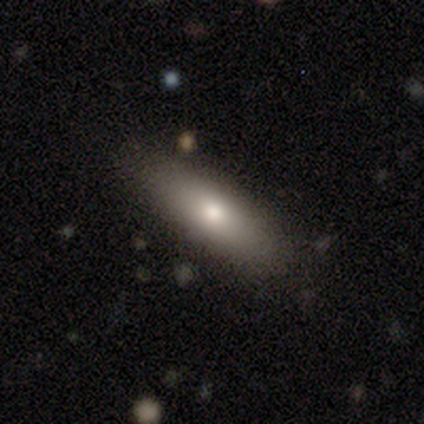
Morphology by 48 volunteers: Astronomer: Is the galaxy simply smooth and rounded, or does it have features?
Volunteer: smooth — 75%.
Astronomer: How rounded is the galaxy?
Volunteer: cigar-shaped — 56% (runner-up: in between, 42%).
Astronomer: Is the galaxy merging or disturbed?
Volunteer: none — 91%.